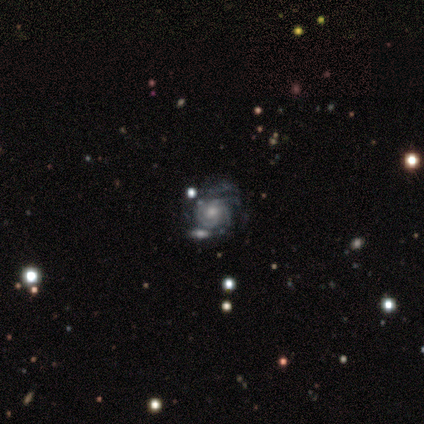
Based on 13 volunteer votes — Smooth or featured?
  - featured or disk: 100% *
  - smooth: 0%
  - star or artifact: 0%
Edge-on disk?
  - no: 100% *
  - yes: 0%
Bar?
  - no: 69% *
  - weak: 31%
  - strong: 0%
Spiral arms?
  - yes: 85% *
  - no: 15%
Spiral winding?
  - tight: 45% *
  - medium: 36%
  - loose: 18%
Spiral arm count?
  - 3: 27% * (tied)
  - 4: 27% * (tied)
  - can't tell: 27% * (tied)
  - 2: 18%
  - 1: 0%
  - more than 4: 0%
Bulge size?
  - moderate: 46% * (tied)
  - small: 46% * (tied)
  - large: 8%
  - dominant: 0%
  - none: 0%
Merging?
  - none: 38% *
  - minor disturbance: 31%
  - major disturbance: 15%
  - merger: 15%